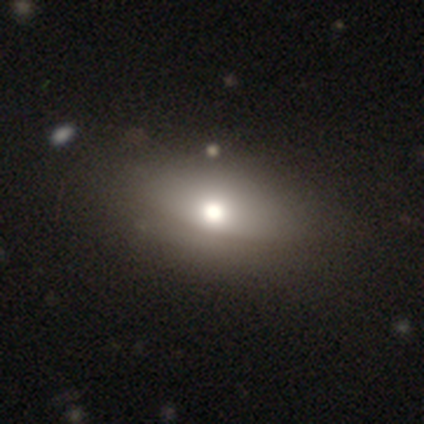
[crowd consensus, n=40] Overall: smooth (62%; featured or disk 30%). How rounded: in between (92%). Merging: none (70%).